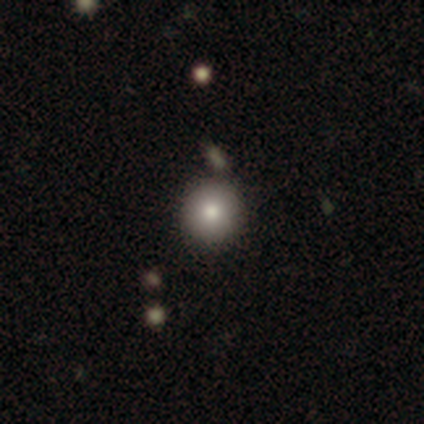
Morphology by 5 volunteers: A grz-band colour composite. It shows a smooth galaxy with no disk features (60%) that is round (100%). Merging: none (100%).